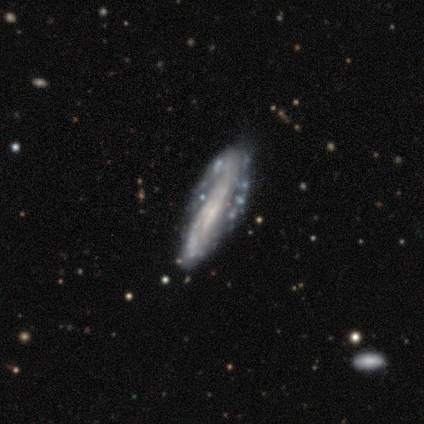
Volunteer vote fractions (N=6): This is clearly a featured or disk galaxy (83%). It is clearly not viewed edge-on (100%). Bar: likely no (60%). Spiral arm pattern: clearly no (80%). Central bulge: likely none (60%). Merging: possibly none (50%, tied with minor disturbance).